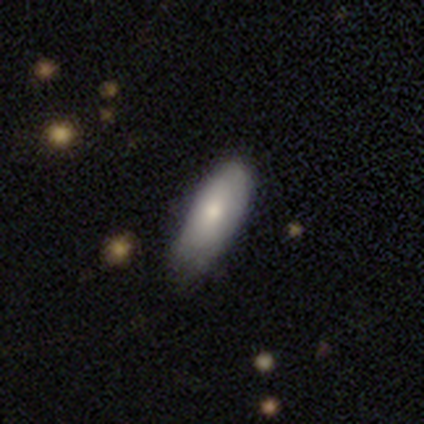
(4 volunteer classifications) Q: Smooth or featured?
A: featured or disk (75%); runner-up: smooth (25%)
Q: Edge-on disk?
A: no (67%); runner-up: yes (33%)
Q: Bar?
A: weak (50%); tied with: no (50%)
Q: Spiral arms?
A: no (100%)
Q: Bulge size?
A: moderate (50%); tied with: small (50%)
Q: Merging?
A: none (50%); runner-up: minor disturbance (25%)